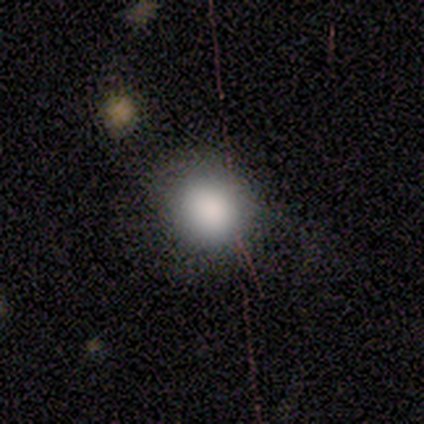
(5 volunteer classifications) smooth-or-featured: smooth: 100% | featured or disk: 0% | star or artifact: 0%
  how-rounded: round: 80% | in between: 20% | cigar-shaped: 0%
  merging: none: 100% | minor disturbance: 0% | major disturbance: 0% | merger: 0%